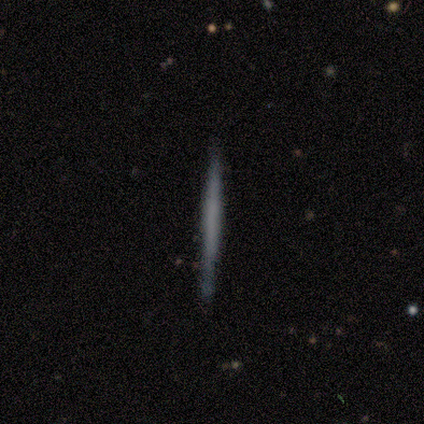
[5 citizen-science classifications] Overall: featured or disk (60%; smooth 40%). Edge-on disk: yes (100%). Edge-on bulge: none (100%). Merging: none (80%).